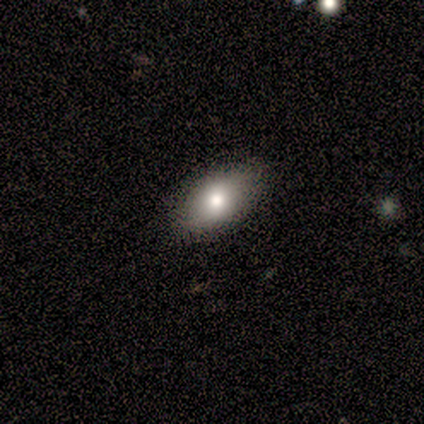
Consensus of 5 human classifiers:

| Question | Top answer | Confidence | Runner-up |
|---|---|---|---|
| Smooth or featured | smooth | 60% | featured or disk (20%) |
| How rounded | in between | 100% | — |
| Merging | none | 100% | — |